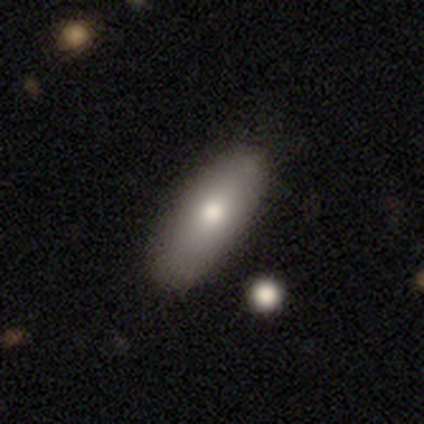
Smooth or featured? smooth (75%)
How rounded? in between (67%)
Merging? none (83%)